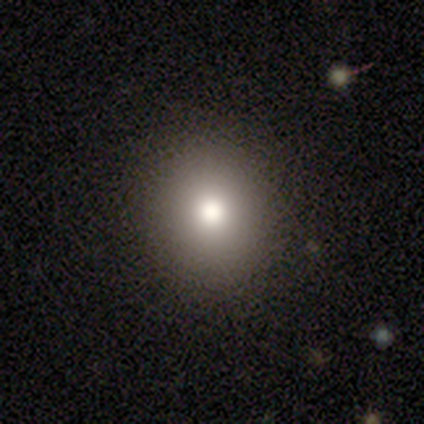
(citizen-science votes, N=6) This appears to be a smooth galaxy with no disk features (83%) that is round (80%). Merging: none (100%).